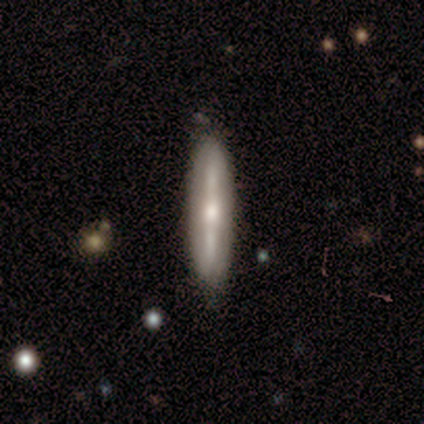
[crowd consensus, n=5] smooth-or-featured: featured or disk: 60% | smooth: 40% | star or artifact: 0%
  disk-edge-on: yes: 67% | no: 33%
    edge-on-bulge: rounded: 100% | boxy: 0% | none: 0%
  merging: none: 100% | minor disturbance: 0% | major disturbance: 0% | merger: 0%